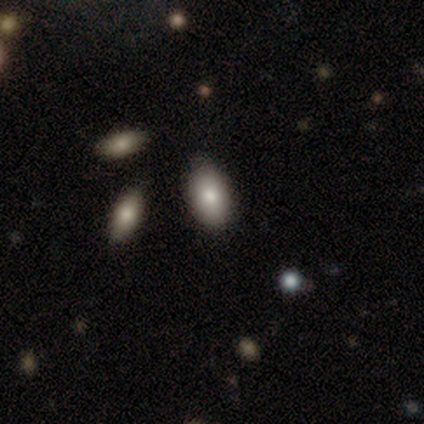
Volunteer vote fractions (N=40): Smooth or featured? smooth (82%)
How rounded? in between (79%)
Merging? none (81%)